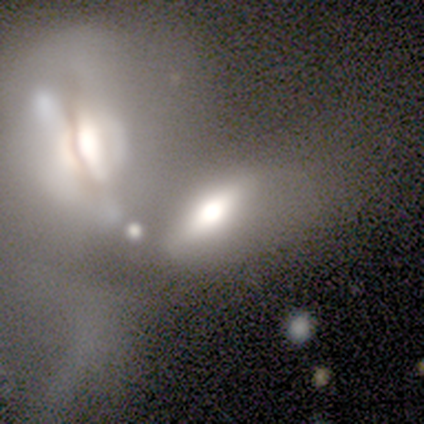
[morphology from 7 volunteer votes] Volunteers were most divided on "smooth or featured": smooth: 57%, featured or disk: 43%, star or artifact: 0%. More confident: how rounded — in between (100%); merging — merger (71%).